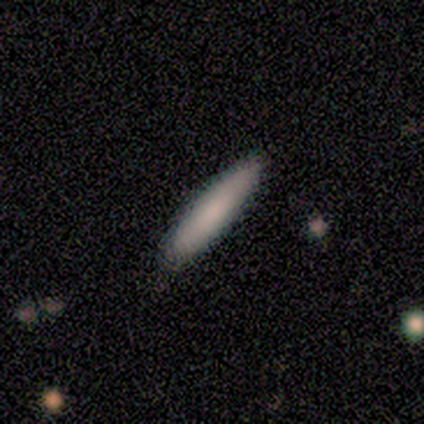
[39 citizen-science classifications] A smooth galaxy with no disk features (79%) that is cigar-shaped (87%). Merging: none (64%).